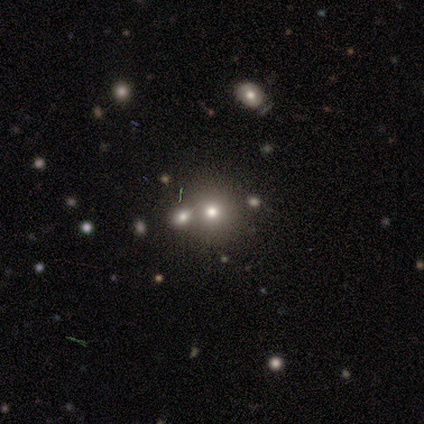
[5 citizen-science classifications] A smooth galaxy with no disk features (60%) that is round (100%).

Vote fractions:
- Smooth or featured? smooth: 60% / featured or disk: 20% / star or artifact: 20%
- How rounded? round: 100% / in between: 0% / cigar-shaped: 0%
- Merging? none: 75% / merger: 25% / minor disturbance: 0% / major disturbance: 0%